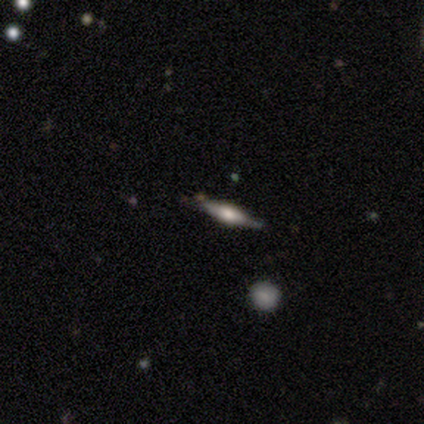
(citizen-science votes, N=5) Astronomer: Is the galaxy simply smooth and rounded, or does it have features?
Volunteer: featured or disk — 60% (runner-up: smooth, 40%).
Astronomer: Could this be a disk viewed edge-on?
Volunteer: yes — 100%.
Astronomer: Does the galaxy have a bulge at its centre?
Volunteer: rounded — 100%.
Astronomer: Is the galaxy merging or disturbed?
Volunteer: none — 60%.